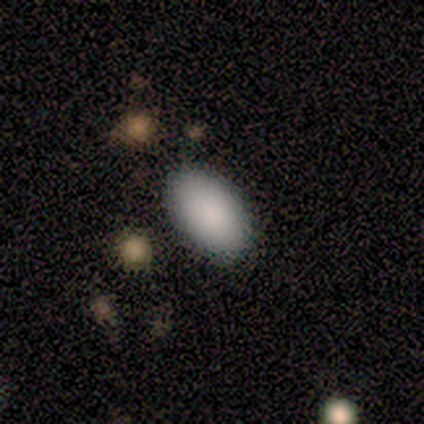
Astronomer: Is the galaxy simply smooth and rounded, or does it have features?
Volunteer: smooth — 80%.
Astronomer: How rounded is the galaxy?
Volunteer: in between — 100%.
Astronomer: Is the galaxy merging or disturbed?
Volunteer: none — 100%.